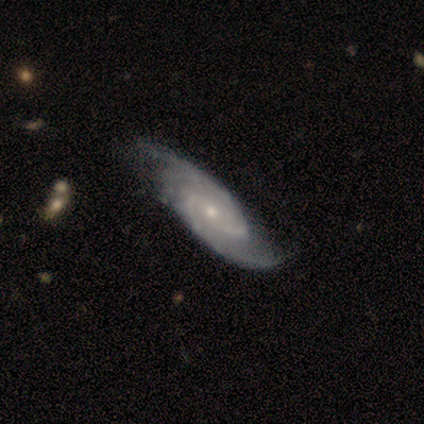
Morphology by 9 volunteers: Volunteers were most divided on "spiral arm count" (2-way tie): 2: 33%, 3: 33%, more than 4: 22%, 4: 11%, 1: 0%, can't tell: 0%. More confident: smooth or featured — featured or disk (100%); edge-on disk — no (100%); spiral arms — yes (100%); merging — none (100%); bulge size — small (89%); bar — no (67%); spiral winding — tight (56%).